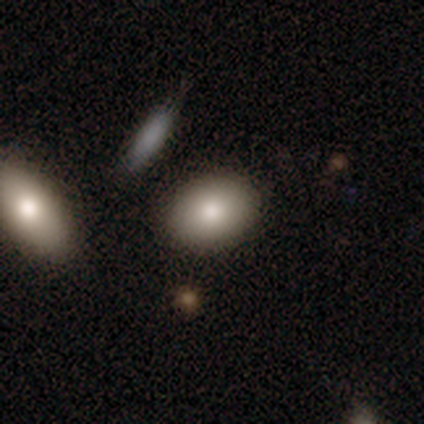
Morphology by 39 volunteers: Overall: smooth (85%). How rounded: in between (67%; round 33%). Merging: none (89%).